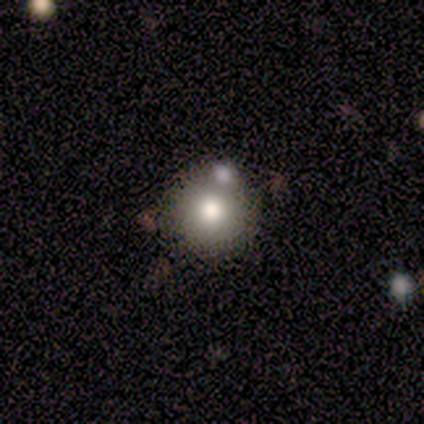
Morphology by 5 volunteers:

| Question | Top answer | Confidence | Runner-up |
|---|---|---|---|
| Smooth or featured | smooth | 80% | featured or disk (20%) |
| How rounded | round | 75% | in between (25%) |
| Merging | none | 80% | merger (20%) |